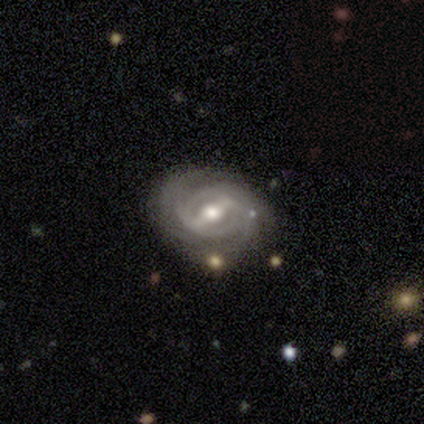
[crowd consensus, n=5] smooth_or_featured: featured or disk (p=1.00)
disk_edge_on: no (p=1.00)
bar: strong (p=0.80) [alt: no p=0.20]
has_spiral_arms: yes (p=1.00)
spiral_winding: tight (p=1.00)
spiral_arm_count: 3 (p=0.40) [alt: 2 p=0.20]
bulge_size: moderate (p=0.80) [alt: small p=0.20]
merging: none (p=0.40) [tied with: minor disturbance p=0.40]